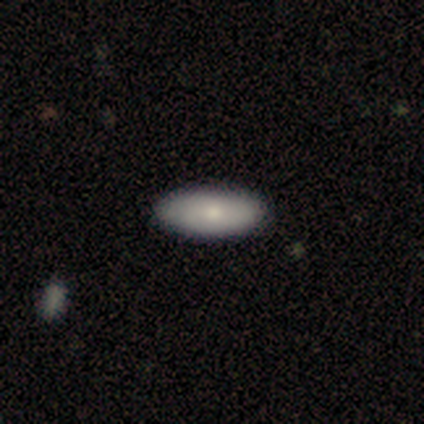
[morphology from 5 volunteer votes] This appears to be a smooth galaxy with no disk features (100%) that is in between round and cigar-shaped (100%). Merging: none (100%).